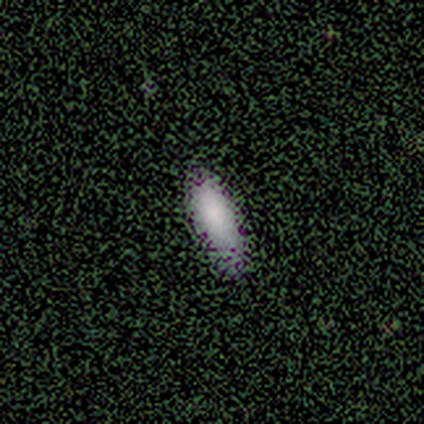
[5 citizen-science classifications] Smooth or featured? 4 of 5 (80%) said smooth. How rounded? 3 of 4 (75%) said in between. Merging? 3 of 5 (60%) said none.